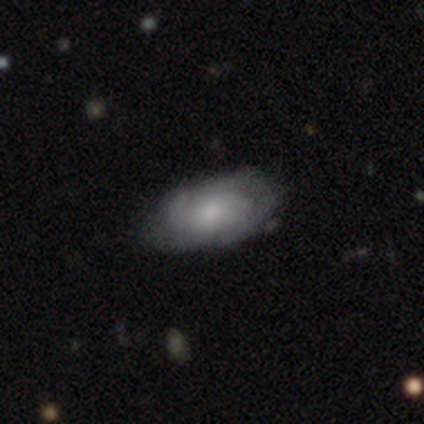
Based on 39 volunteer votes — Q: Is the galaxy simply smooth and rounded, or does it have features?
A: featured or disk — 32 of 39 (82%).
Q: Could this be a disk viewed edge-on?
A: no — 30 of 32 (94%).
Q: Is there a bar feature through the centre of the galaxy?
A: no — 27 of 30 (90%).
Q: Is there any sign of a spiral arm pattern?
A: yes — 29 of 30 (97%).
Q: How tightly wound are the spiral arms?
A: tight — 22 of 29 (76%).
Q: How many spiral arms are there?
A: can't tell — 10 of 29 (34%).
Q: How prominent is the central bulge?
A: moderate — 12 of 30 (40%).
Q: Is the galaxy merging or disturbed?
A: none — 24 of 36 (67%).